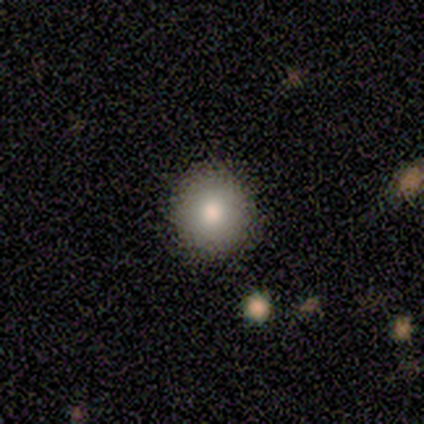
A smooth galaxy with no disk features (80%) that is round (97%). Merging: none (61%).